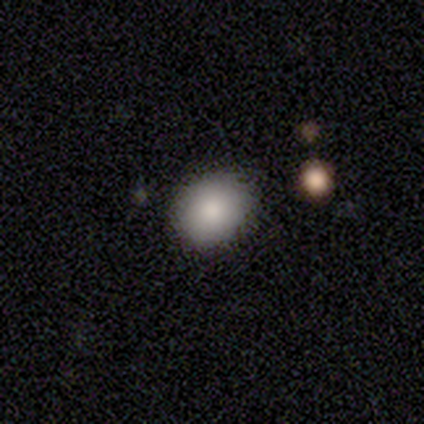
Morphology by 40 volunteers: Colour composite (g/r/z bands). It shows a smooth galaxy with no disk features (82%) that is round (58%). Merging: none (81%).